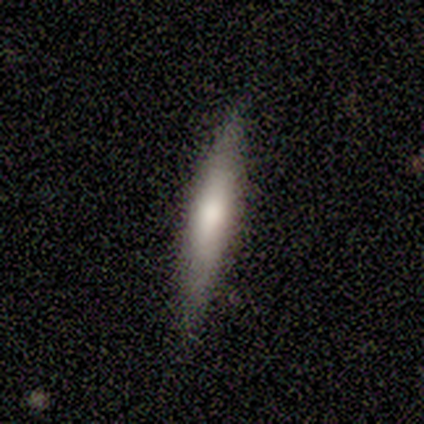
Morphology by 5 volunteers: This is clearly a smooth galaxy (80%). How rounded: clearly cigar-shaped (100%). Merging: clearly none (80%).